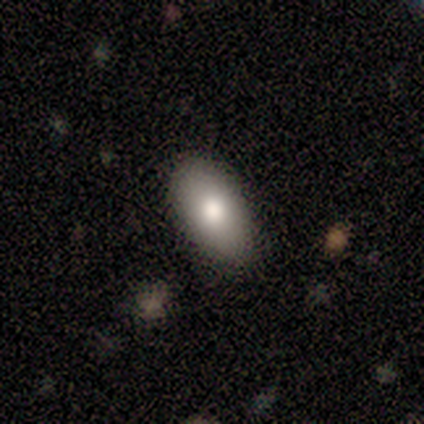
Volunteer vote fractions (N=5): Q: Smooth or featured?
A: smooth (100%)
Q: How rounded?
A: in between (100%)
Q: Merging?
A: none (100%)